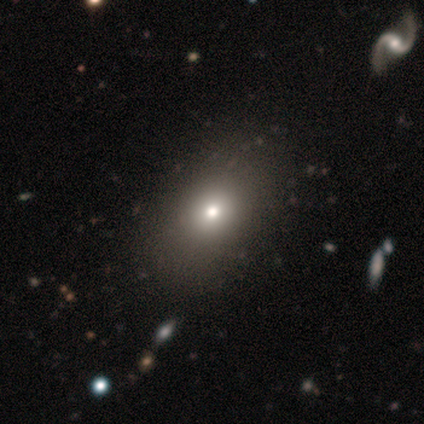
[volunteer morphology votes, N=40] Smooth or featured?
  - smooth: 68% *
  - featured or disk: 25%
  - star or artifact: 8%
How rounded?
  - in between: 56% *
  - round: 44%
  - cigar-shaped: 0%
Merging?
  - none: 78% *
  - minor disturbance: 3%
  - major disturbance: 0%
  - merger: 0%